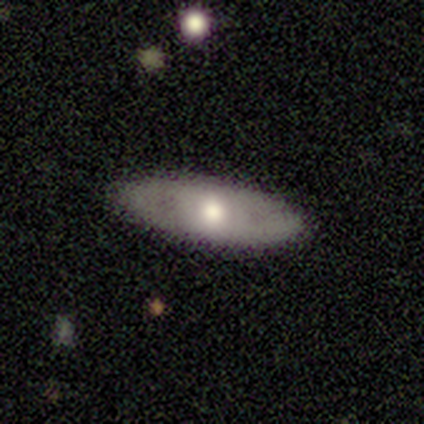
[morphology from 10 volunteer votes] Smooth or featured? featured or disk (50%)
Edge-on disk? no (80%)
Bar? no (100%)
Spiral arms? no (100%)
Bulge size? moderate (75%)
Merging? none (100%)